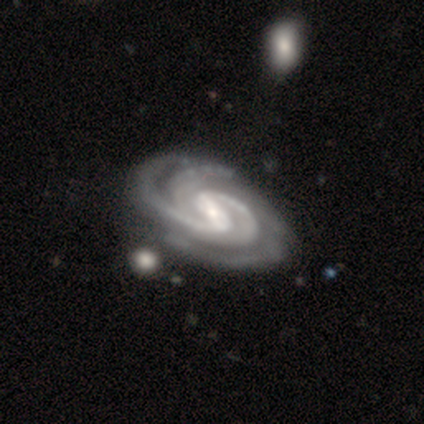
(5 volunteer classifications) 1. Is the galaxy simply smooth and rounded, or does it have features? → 80% featured or disk, 20% star or artifact, 0% smooth.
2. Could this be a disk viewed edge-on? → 100% no, 0% yes.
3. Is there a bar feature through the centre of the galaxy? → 75% strong, 25% weak, 0% no.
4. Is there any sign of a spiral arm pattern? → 100% yes, 0% no.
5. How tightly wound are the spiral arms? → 50% tight (tied), 50% medium (tied), 0% loose.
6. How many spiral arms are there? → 75% 4, 25% 2, 0% 1, 0% 3, 0% more than 4, 0% can't tell.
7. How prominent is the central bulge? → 75% small, 25% none, 0% dominant, 0% large, 0% moderate.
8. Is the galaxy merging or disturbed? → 50% none, 25% minor disturbance, 25% major disturbance, 0% merger.